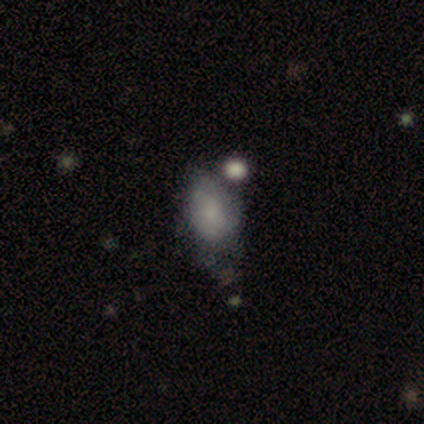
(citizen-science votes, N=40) smooth 60%, featured or disk 22%, star or artifact 18%. Down the decision tree: how rounded — in between (67%); merging — none (36%).